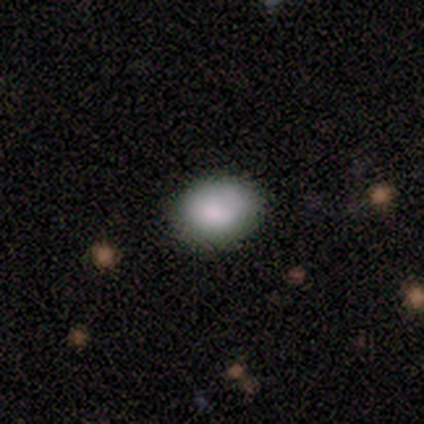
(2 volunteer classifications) This appears to be a smooth galaxy with no disk features (100%) that is round (50%, tied with in between). Merging: none (100%).